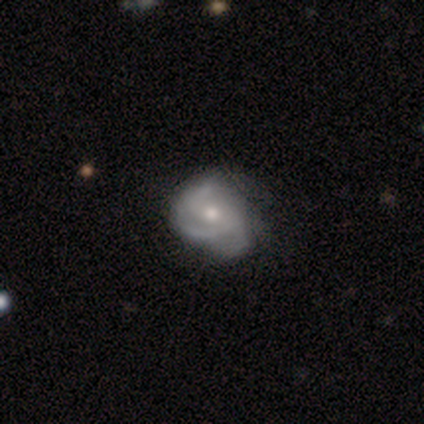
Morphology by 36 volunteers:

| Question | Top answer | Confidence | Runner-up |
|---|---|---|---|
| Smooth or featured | featured or disk | 89% | smooth (11%) |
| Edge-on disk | no | 100% | — |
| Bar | no | 69% | weak (28%) |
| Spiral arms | yes | 97% | no (3%) |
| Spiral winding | tight | 45% | medium (32%) |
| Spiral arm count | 3 | 39% | can't tell (32%) |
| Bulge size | moderate | 66% | small (34%) |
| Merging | none | 31% | tied: minor disturbance (31%) |